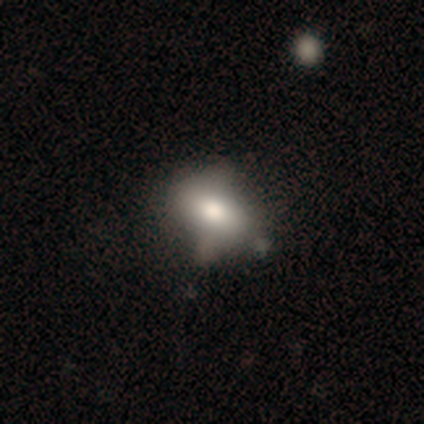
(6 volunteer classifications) A smooth galaxy with no disk features (83%) that is in between round and cigar-shaped (100%). Merging: none (50%).